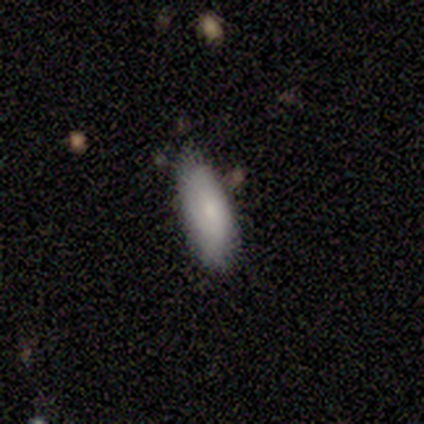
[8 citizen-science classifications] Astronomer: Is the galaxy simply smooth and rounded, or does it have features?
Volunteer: smooth — 75%.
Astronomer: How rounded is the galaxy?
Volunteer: in between — 100%.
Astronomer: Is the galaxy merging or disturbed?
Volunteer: none — 67%.